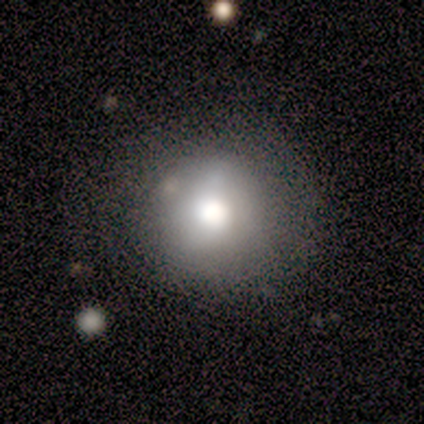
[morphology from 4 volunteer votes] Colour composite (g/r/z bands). It shows a smooth galaxy with no disk features (75%) that is round (67%). Merging: none (100%).